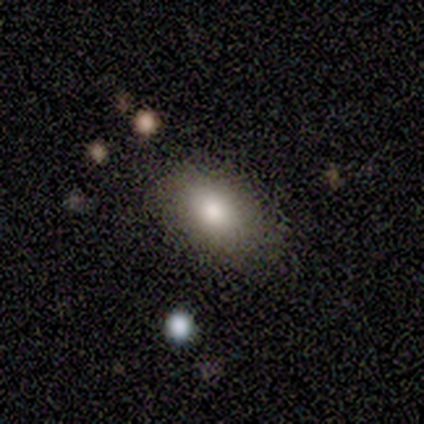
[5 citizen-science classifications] Overall: smooth (80%). How rounded: in between (50%; round 25%). Merging: none (60%; minor disturbance 20%).